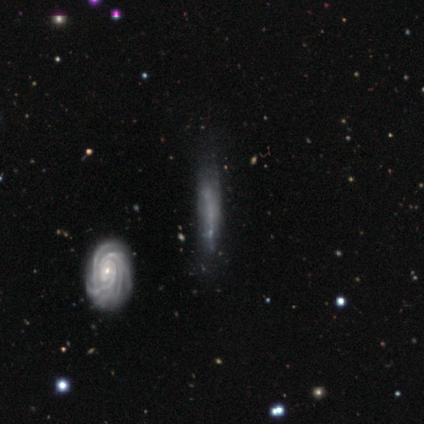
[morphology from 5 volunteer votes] This is likely a featured or disk galaxy (60%). It is likely not viewed edge-on (67%). Bar: clearly no (100%). Spiral arm pattern: clearly yes (100%). Spiral arm count: possibly 3 (50%, tied with 4). Spiral winding: possibly tight (50%, tied with medium). Central bulge: clearly small (100%). Merging: likely none (75%).